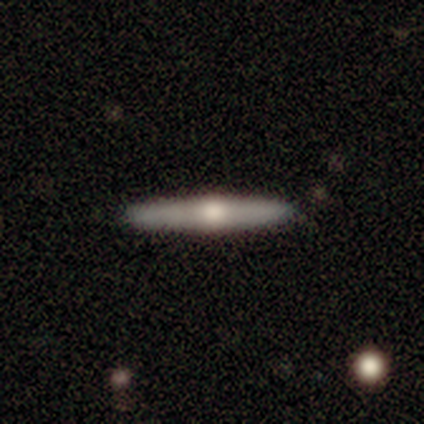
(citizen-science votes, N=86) Smooth or featured? featured or disk (50%)
Edge-on disk? yes (95%)
Edge-on bulge? rounded (95%)
Merging? none (89%)